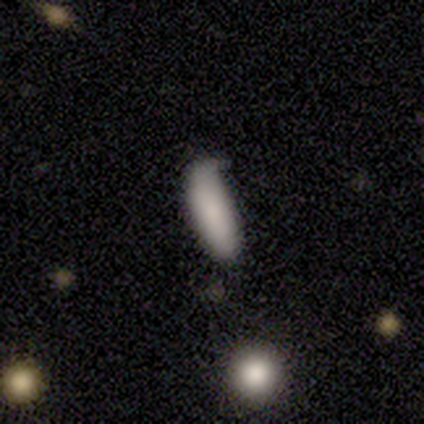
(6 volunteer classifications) smooth 83%, featured or disk 17%, star or artifact 0%. Down the decision tree: how rounded — in between (60%); merging — minor disturbance (67%).